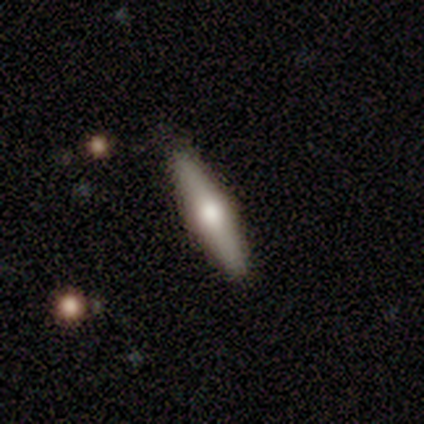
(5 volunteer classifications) Overall: featured or disk (60%; smooth 40%). Edge-on disk: yes (100%). Edge-on bulge: rounded (100%). Merging: none (100%).